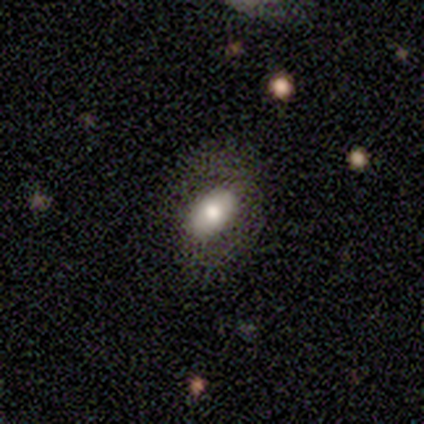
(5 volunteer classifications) Smooth or featured: smooth — 60% (featured or disk — 20%)
How rounded: in between — 100%
Merging: none — 50% (minor disturbance — 25%)